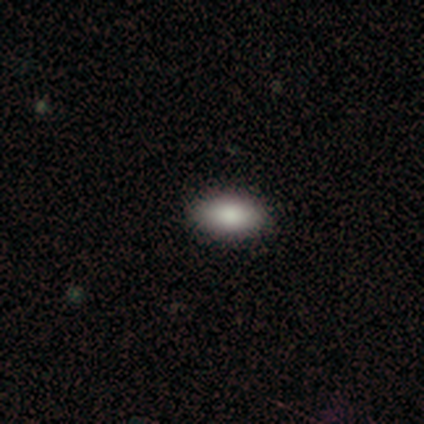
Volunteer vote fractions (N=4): Q: Smooth or featured?
A: smooth (75%); runner-up: featured or disk (25%)
Q: How rounded?
A: in between (100%)
Q: Merging?
A: none (100%)